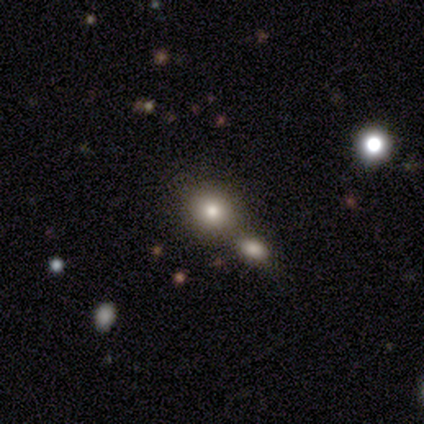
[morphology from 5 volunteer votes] Smooth or featured? 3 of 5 (60%) said smooth. How rounded? 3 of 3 (100%) said round. Merging? 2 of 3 (67%) said none.